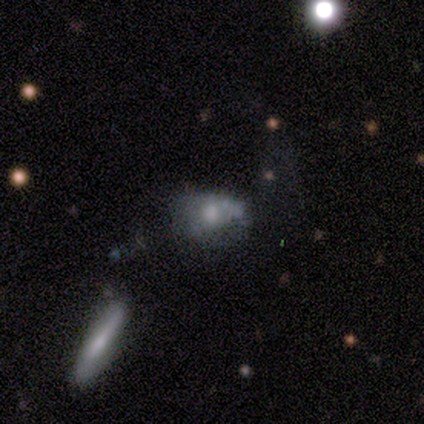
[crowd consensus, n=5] Smooth or featured? smooth (60%)
How rounded? in between (67%)
Merging? none (80%)